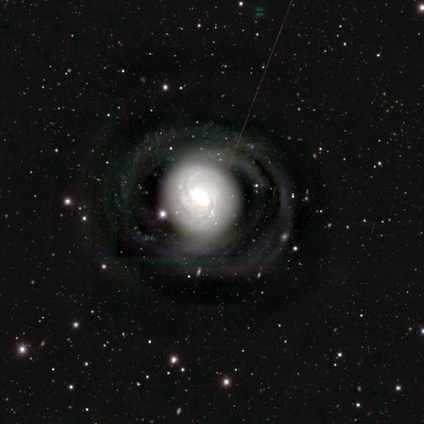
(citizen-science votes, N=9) A featured or disk galaxy (100%) with no bar (44%), 2 (38%) medium (62%) spiral arms (89%) and a dominant central bulge (44%).

Vote fractions:
- Smooth or featured? featured or disk: 100% / smooth: 0% / star or artifact: 0%
- Edge-on disk? no: 100% / yes: 0%
- Bar? no: 44% / strong: 33% / weak: 22%
- Spiral arms? yes: 89% / no: 11%
- Spiral winding? medium: 62% / loose: 25% / tight: 12%
- Spiral arm count? 2: 38% / 4: 25% / can't tell: 25% / 3: 12% / 1: 0% / more than 4: 0%
- Bulge size? dominant: 44% / moderate: 33% / large: 22% / small: 0% / none: 0%
- Merging? none: 78% / minor disturbance: 22% / major disturbance: 0% / merger: 0%